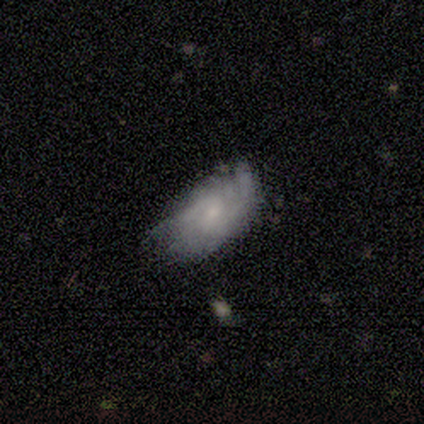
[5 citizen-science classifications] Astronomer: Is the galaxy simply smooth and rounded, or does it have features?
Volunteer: smooth — 40%, tied with star or artifact at 40%.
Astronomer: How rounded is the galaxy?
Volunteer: in between — 100%.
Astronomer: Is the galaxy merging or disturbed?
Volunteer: none — 33%, tied with minor disturbance and major disturbance at 33%.